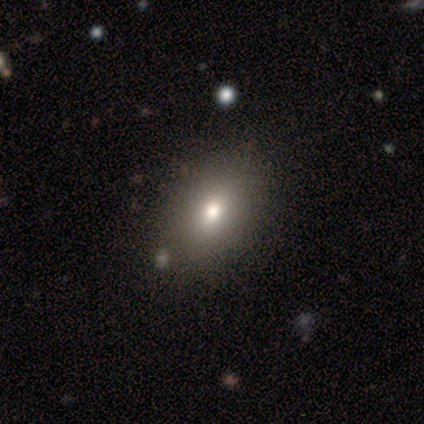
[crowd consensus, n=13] smooth_or_featured: smooth (p=0.85) [alt: featured or disk p=0.15]
how_rounded: in between (p=0.91) [alt: round p=0.09]
merging: none (p=0.92) [alt: minor disturbance p=0.08]